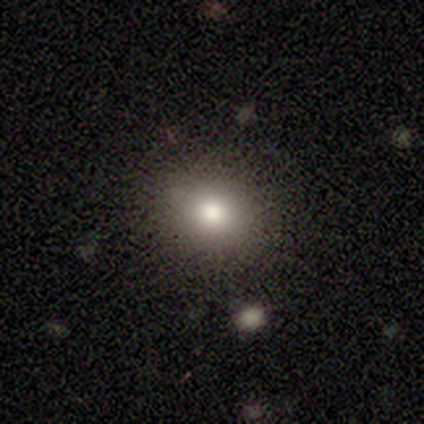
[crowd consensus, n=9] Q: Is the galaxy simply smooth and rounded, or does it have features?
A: smooth — 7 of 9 (78%).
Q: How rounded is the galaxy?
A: round — 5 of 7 (71%).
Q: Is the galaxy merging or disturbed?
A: none — 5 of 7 (71%).